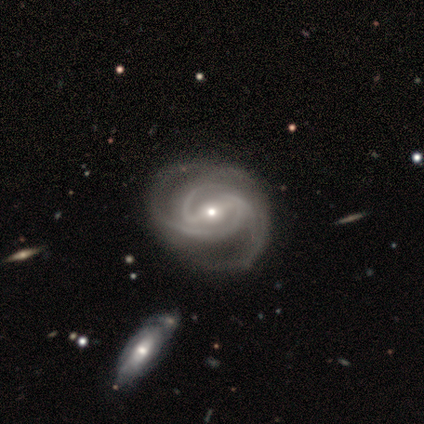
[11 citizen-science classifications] Overall: featured or disk (82%). Edge-on disk: no (100%). Bar: strong (89%). Spiral arms: yes (100%). Spiral arm count: 3 (56%; 2 44%). Spiral winding: medium (44%; tight 33%). Bulge size: small (67%; moderate 33%). Merging: none (18%, tied with minor disturbance and merger).